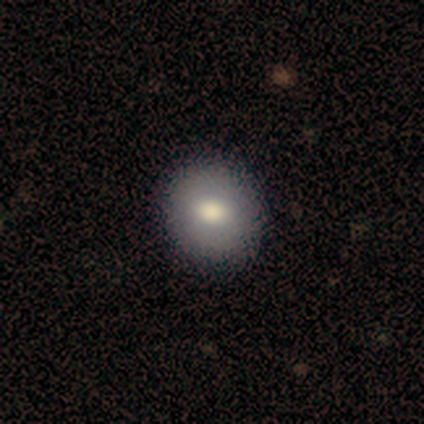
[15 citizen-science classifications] smooth_or_featured: smooth (p=0.80) [alt: featured or disk p=0.13]
how_rounded: round (p=0.75) [alt: in between p=0.25]
merging: none (p=1.00)